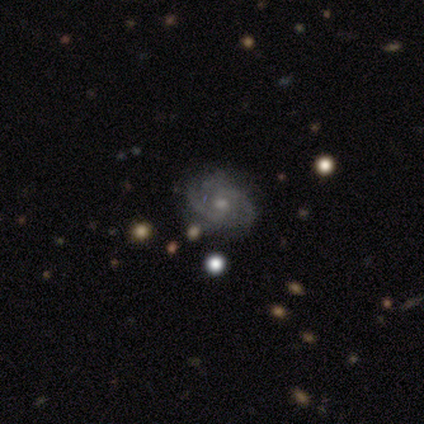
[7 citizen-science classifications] Smooth or featured? featured or disk (100%)
Edge-on disk? no (100%)
Bar? weak (57%)
Spiral arms? yes (100%)
Spiral winding? medium (57%)
Spiral arm count? 2 (43%)
Bulge size? small (71%)
Merging? none (100%)